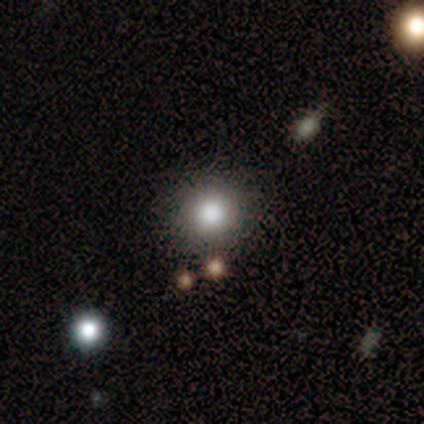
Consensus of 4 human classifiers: Volunteers were most divided on "merging": none: 75%, minor disturbance: 25%, major disturbance: 0%, merger: 0%. More confident: smooth or featured — smooth (100%); how rounded — round (100%).